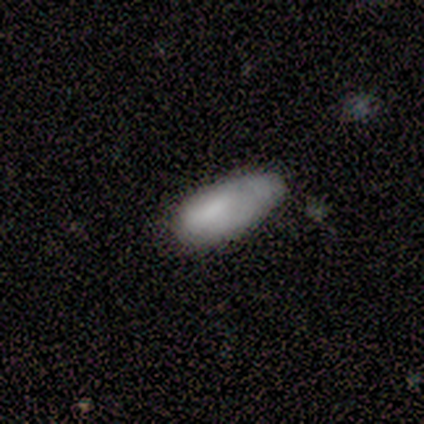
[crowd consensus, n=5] Overall: smooth (100%). How rounded: in between (80%). Merging: none (60%; minor disturbance 40%).